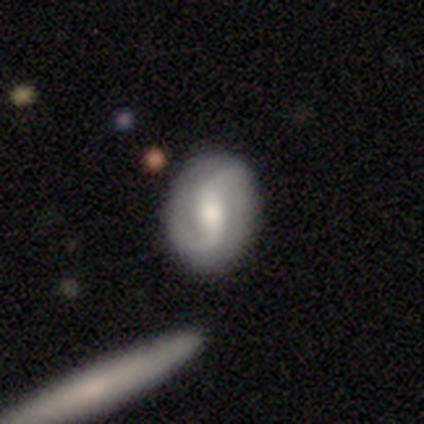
Smooth or featured?
  - featured or disk: 60% *
  - smooth: 40%
  - star or artifact: 0%
Edge-on disk?
  - no: 100% *
  - yes: 0%
Bar?
  - no: 67% *
  - weak: 33%
  - strong: 0%
Spiral arms?
  - yes: 67% *
  - no: 33%
Spiral winding?
  - medium: 50% * (tied)
  - loose: 50% * (tied)
  - tight: 0%
Spiral arm count?
  - 2: 100% *
  - 1: 0%
  - 3: 0%
  - 4: 0%
  - more than 4: 0%
  - can't tell: 0%
Bulge size?
  - small: 67% *
  - moderate: 33%
  - dominant: 0%
  - large: 0%
  - none: 0%
Merging?
  - none: 80% *
  - merger: 20%
  - minor disturbance: 0%
  - major disturbance: 0%